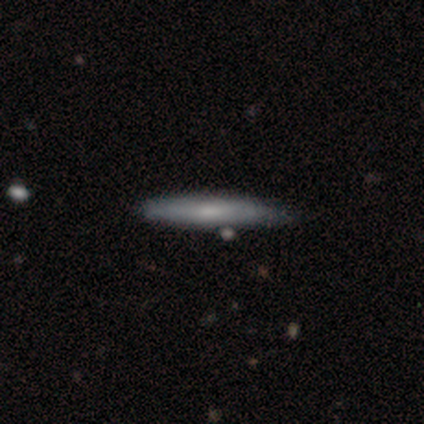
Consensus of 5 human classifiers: A smooth galaxy with no disk features (100%) that is cigar-shaped (100%). Merging: none (80%).